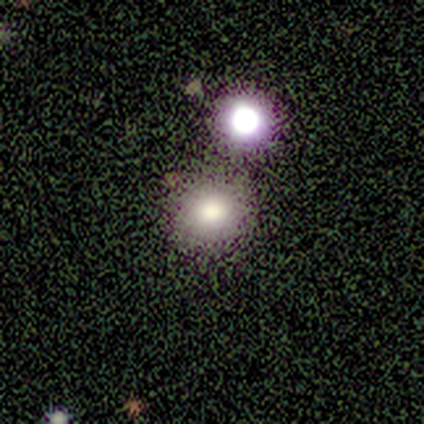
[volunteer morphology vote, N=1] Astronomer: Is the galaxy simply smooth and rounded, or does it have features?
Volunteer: smooth — 100%.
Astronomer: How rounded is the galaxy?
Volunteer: round — 100%.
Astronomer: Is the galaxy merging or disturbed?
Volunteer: none — 100%.